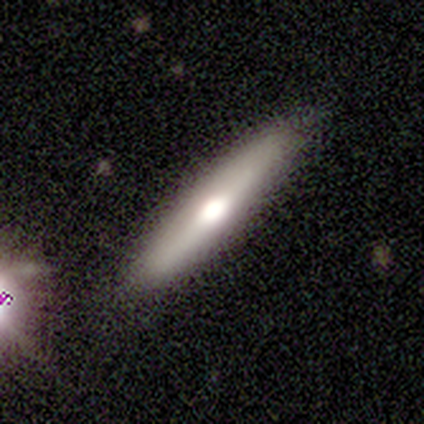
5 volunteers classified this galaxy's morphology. type=featured or disk (60%); edge-on=yes (100%); edge-on bulge=rounded (67%); merging=none (100%).